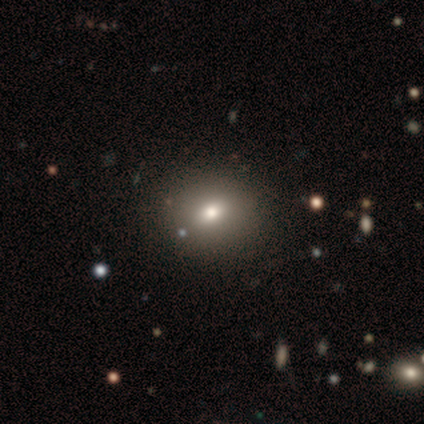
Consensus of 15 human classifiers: Smooth or featured? 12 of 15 (80%) said smooth. How rounded? 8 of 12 (67%) said round. Merging? 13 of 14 (93%) said none.